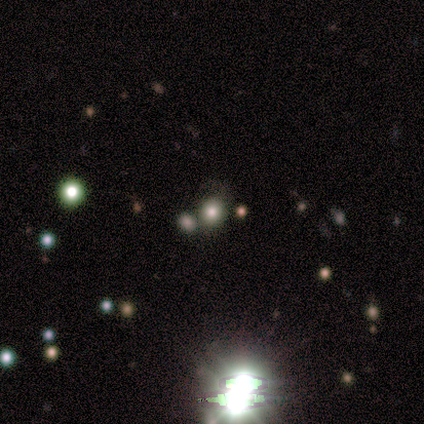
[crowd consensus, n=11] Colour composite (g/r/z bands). It shows a smooth galaxy with no disk features (45%) that is round (100%). Merging: none (86%).